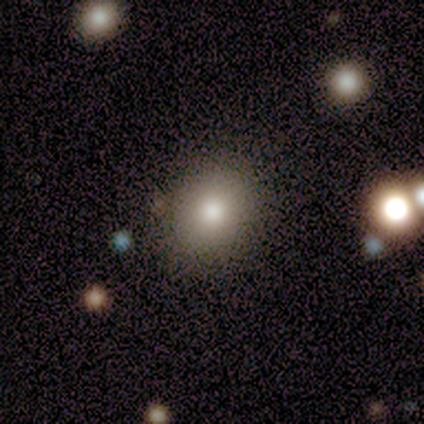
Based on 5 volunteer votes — Overall: smooth (80%). How rounded: round (50%, tied with in between). Merging: none (75%).